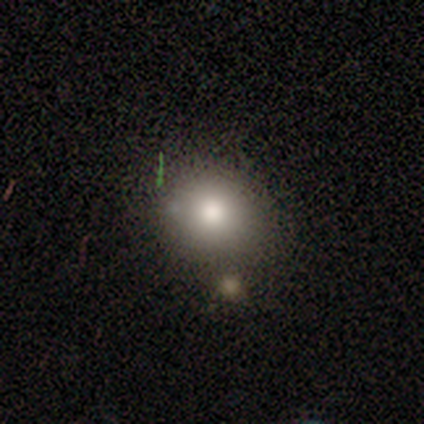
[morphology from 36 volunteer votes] This is clearly a smooth galaxy (81%). How rounded: likely round (76%). Merging: likely none (70%).